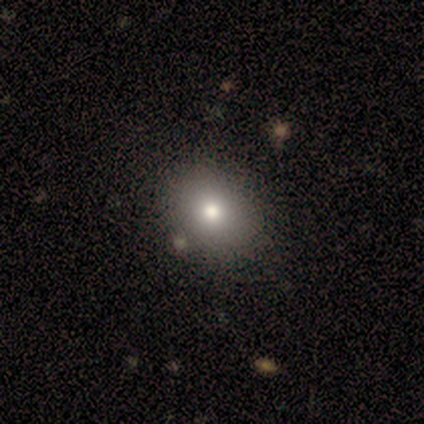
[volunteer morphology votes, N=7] Smooth or featured: smooth — 57% (star or artifact — 29%)
How rounded: round — 75% (in between — 25%)
Merging: none — 100%